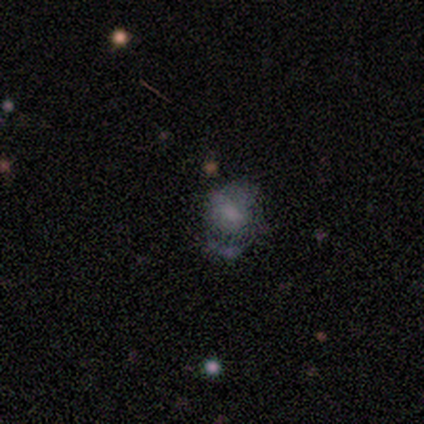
smooth 50% (tied), featured or disk 50% (tied), star or artifact 0%. Down the decision tree: how rounded — round (100%); merging — none (50%).